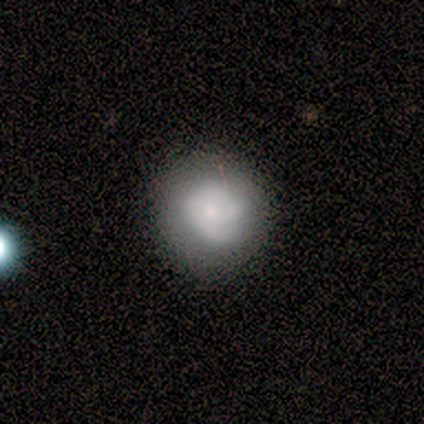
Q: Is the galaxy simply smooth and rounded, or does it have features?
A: smooth — 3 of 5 (60%).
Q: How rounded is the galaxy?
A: round — 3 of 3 (100%).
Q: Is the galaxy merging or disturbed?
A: none — 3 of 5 (60%).